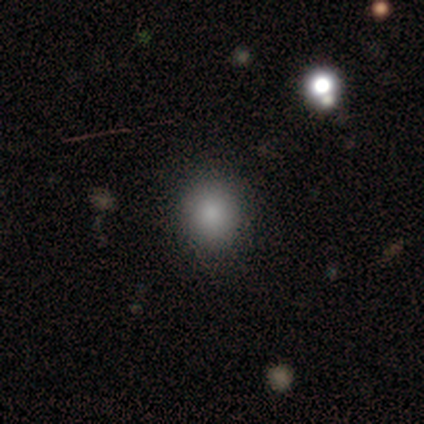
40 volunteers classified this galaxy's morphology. Q: Smooth or featured?
A: smooth (85%); runner-up: star or artifact (12%)
Q: How rounded?
A: round (91%); runner-up: in between (9%)
Q: Merging?
A: none (91%); runner-up: minor disturbance (3%)